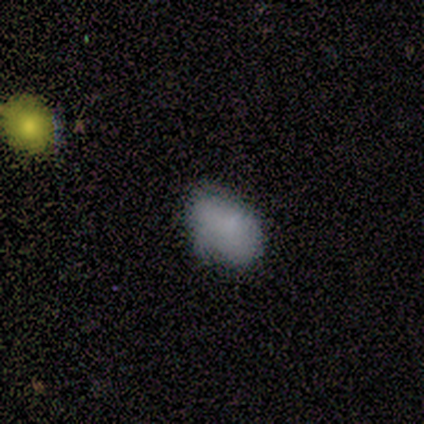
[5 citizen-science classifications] Volunteers were most divided on "smooth or featured": smooth: 60%, featured or disk: 40%, star or artifact: 0%. More confident: how rounded — in between (100%); merging — minor disturbance (60%).